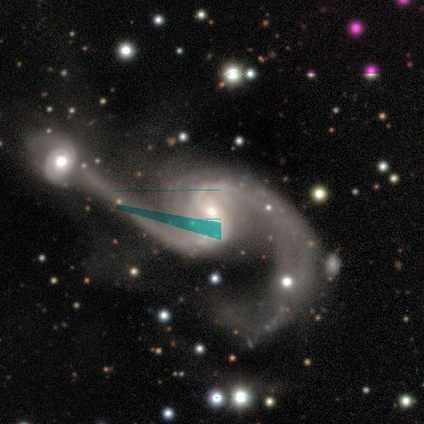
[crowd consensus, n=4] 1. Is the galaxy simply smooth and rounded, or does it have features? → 100% featured or disk, 0% smooth, 0% star or artifact.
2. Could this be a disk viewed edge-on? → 100% no, 0% yes.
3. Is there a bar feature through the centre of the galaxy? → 75% no, 25% strong, 0% weak.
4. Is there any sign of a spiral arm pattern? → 100% yes, 0% no.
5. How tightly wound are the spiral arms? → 100% loose, 0% tight, 0% medium.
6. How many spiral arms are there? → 100% 2, 0% 1, 0% 3, 0% 4, 0% more than 4, 0% can't tell.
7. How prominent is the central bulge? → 50% moderate (tied), 50% small (tied), 0% dominant, 0% large, 0% none.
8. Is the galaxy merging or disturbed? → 75% merger, 25% major disturbance, 0% none, 0% minor disturbance.